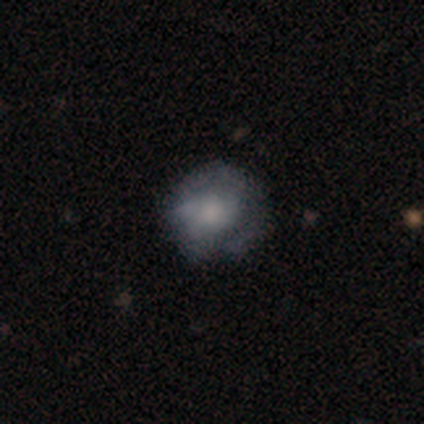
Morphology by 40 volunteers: Smooth or featured?
  - featured or disk: 52% *
  - smooth: 42%
  - star or artifact: 5%
Edge-on disk?
  - no: 95% *
  - yes: 5%
Bar?
  - no: 90% *
  - strong: 5%
  - weak: 5%
Spiral arms?
  - no: 65% *
  - yes: 35%
Bulge size?
  - moderate: 30% *
  - small: 25%
  - none: 25%
  - large: 20%
  - dominant: 0%
Merging?
  - none: 45% *
  - minor disturbance: 42%
  - major disturbance: 8%
  - merger: 5%